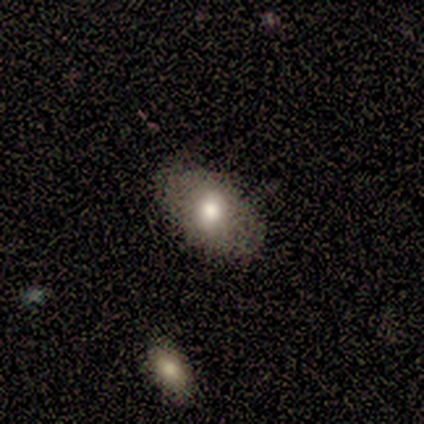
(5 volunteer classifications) Smooth or featured: smooth — 80% (featured or disk — 20%)
How rounded: in between — 75% (round — 25%)
Merging: none — 100%